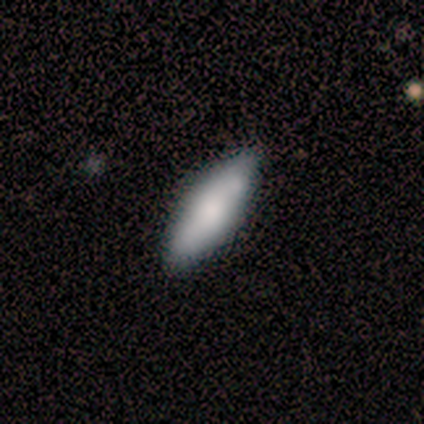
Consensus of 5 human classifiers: Overall: smooth (100%). How rounded: in between (60%; cigar-shaped 40%). Merging: none (80%).